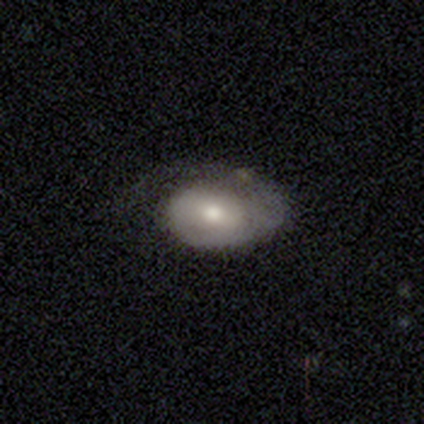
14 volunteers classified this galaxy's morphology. Q: Smooth or featured?
A: smooth (50%); runner-up: featured or disk (43%)
Q: How rounded?
A: in between (86%); runner-up: round (14%)
Q: Merging?
A: none (54%); runner-up: major disturbance (31%)